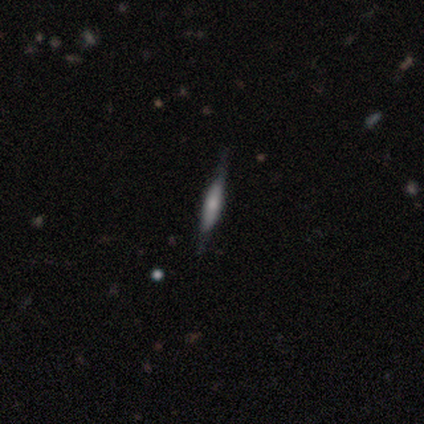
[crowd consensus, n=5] smooth-or-featured: smooth: 60% | featured or disk: 40% | star or artifact: 0%
  how-rounded: cigar-shaped: 67% | round: 33% | in between: 0%
  merging: none: 80% | minor disturbance: 20% | major disturbance: 0% | merger: 0%